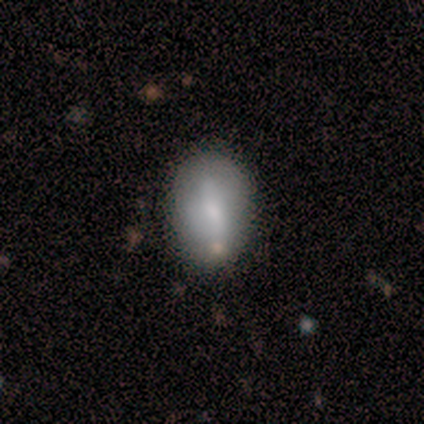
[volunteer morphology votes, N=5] smooth-or-featured: smooth: 60% | featured or disk: 20% | star or artifact: 20%
  how-rounded: in between: 100% | round: 0% | cigar-shaped: 0%
  merging: none: 75% | minor disturbance: 25% | major disturbance: 0% | merger: 0%